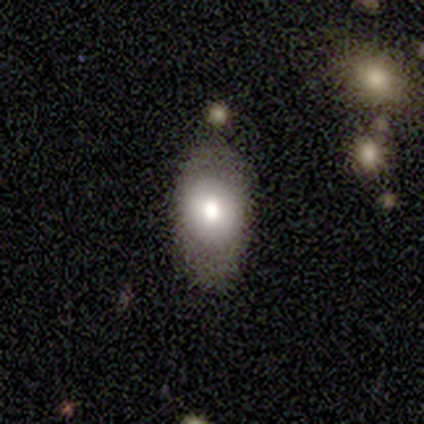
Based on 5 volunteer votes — Volunteers were most divided on "how rounded": in between: 75%, cigar-shaped: 25%, round: 0%. More confident: merging — none (100%); smooth or featured — smooth (80%).